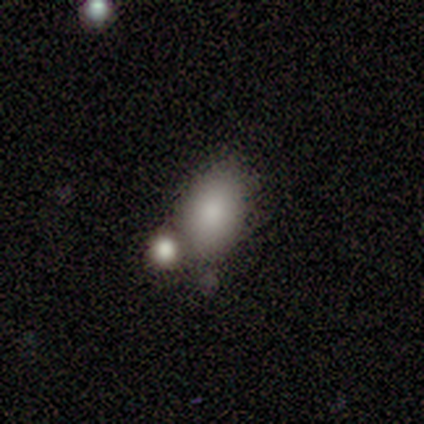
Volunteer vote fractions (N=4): smooth_or_featured: smooth (p=0.75) [alt: featured or disk p=0.25]
how_rounded: in between (p=0.67) [alt: round p=0.33]
merging: none (p=0.50) [alt: minor disturbance p=0.25]